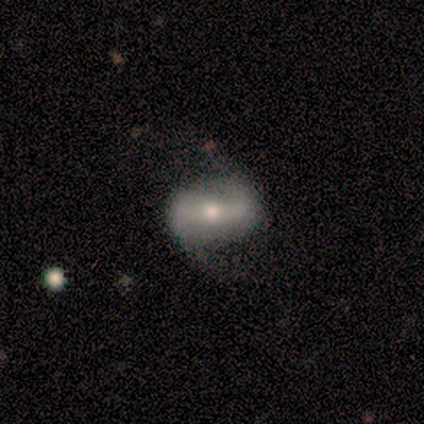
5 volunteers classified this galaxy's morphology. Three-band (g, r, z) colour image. It shows a featured or disk galaxy (100%) with a strong bar (60%), 2 (100%) medium (50%, tied with loose) spiral arms (80%) and a small central bulge (60%). Merging: none (80%).